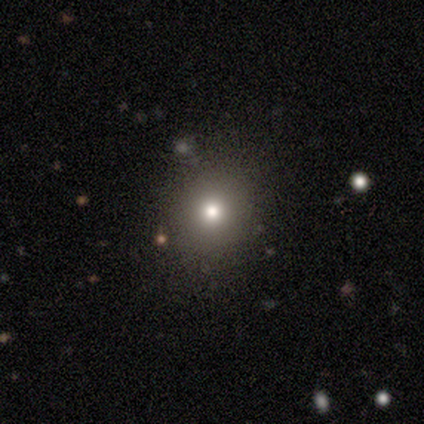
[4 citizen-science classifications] This is possibly a smooth galaxy (50%, tied with star or artifact). How rounded: possibly round (50%, tied with in between). Merging: clearly none (100%).